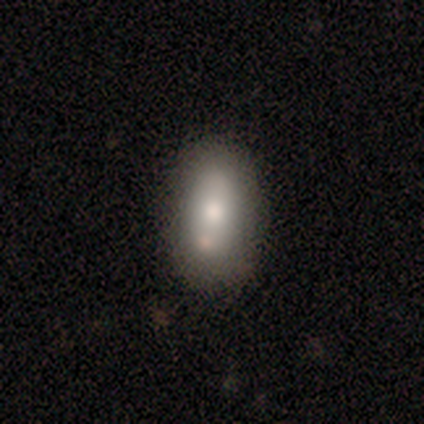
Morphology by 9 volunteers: smooth_or_featured: smooth (p=0.67) [alt: featured or disk p=0.33]
how_rounded: in between (p=0.67) [alt: cigar-shaped p=0.33]
merging: none (p=0.78) [alt: major disturbance p=0.11]